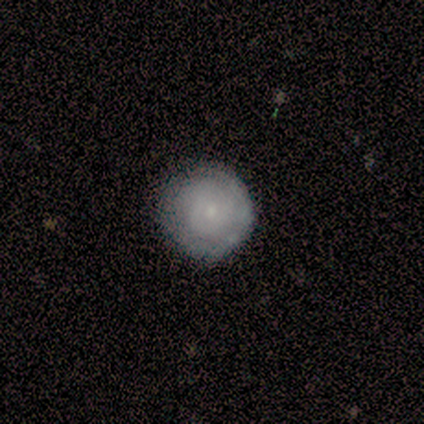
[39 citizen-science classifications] Morphology: type=featured or disk (44%); edge-on=no (94%); bar=no (88%); spiral arms=yes (81%); winding=tight (92%); arm count=can't tell (62%); bulge=small (88%); merging=none (73%).